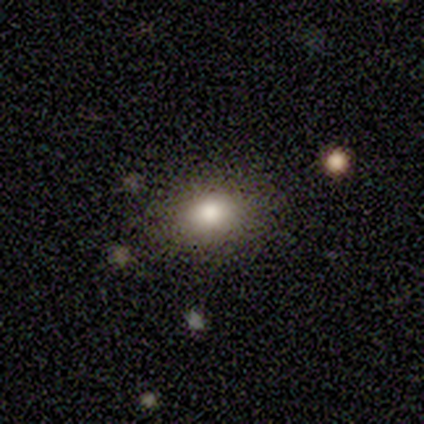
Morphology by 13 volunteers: Smooth or featured? 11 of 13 (85%) said smooth. How rounded? 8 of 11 (73%) said in between. Merging? 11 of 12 (92%) said none.